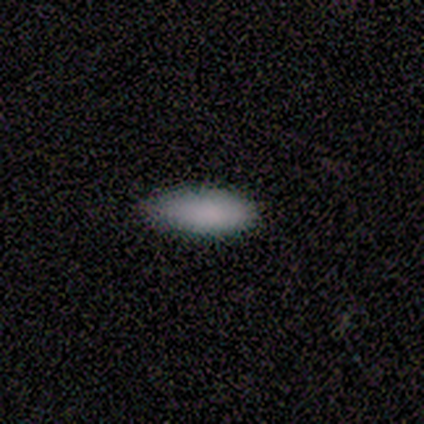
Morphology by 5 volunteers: Smooth or featured? 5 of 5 (100%) said smooth. How rounded? 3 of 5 (60%) said in between. Merging? 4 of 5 (80%) said none.